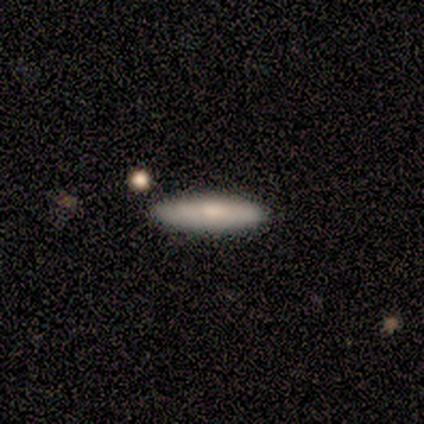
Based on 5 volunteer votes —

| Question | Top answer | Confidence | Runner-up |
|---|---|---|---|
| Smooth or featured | smooth | 60% | featured or disk (40%) |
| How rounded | cigar-shaped | 100% | — |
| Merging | none | 100% | — |